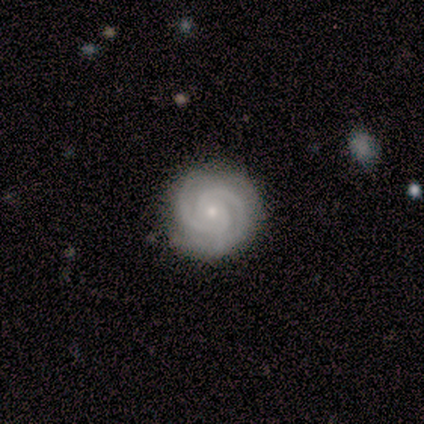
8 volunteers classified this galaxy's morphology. Volunteers were most divided on "bar": no: 75%, weak: 25%, strong: 0%. More confident: smooth or featured — featured or disk (100%); edge-on disk — no (100%); spiral arms — yes (100%); bulge size — small (100%); merging — none (100%); spiral winding — tight (75%); spiral arm count — 2 (75%).